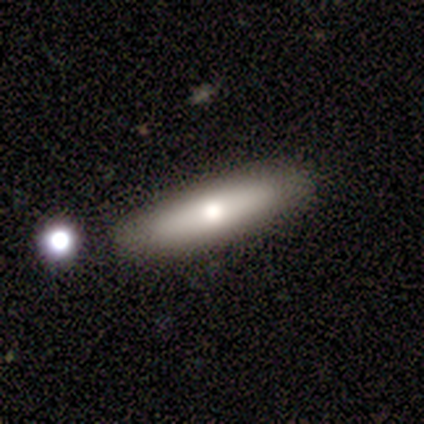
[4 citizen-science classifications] Overall: smooth (75%). How rounded: in between (67%; cigar-shaped 33%). Merging: none (100%).